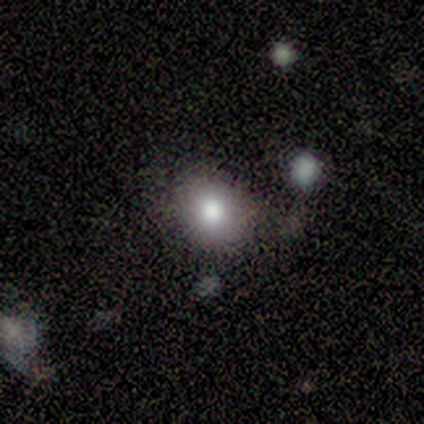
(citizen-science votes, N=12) smooth-or-featured: smooth: 75% | star or artifact: 17% | featured or disk: 8%
  how-rounded: round: 89% | in between: 11% | cigar-shaped: 0%
  merging: none: 100% | minor disturbance: 0% | major disturbance: 0% | merger: 0%